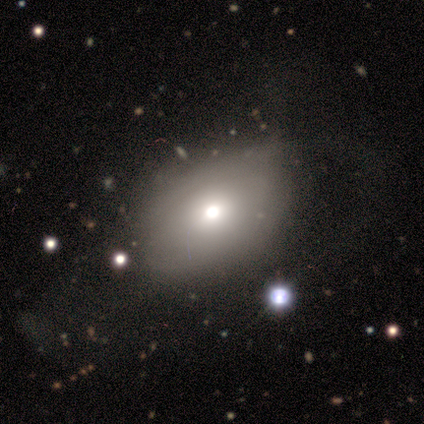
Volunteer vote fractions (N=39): Smooth or featured? 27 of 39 (69%) said smooth. How rounded? 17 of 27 (63%) said in between. Merging? 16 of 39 (41%) said none.